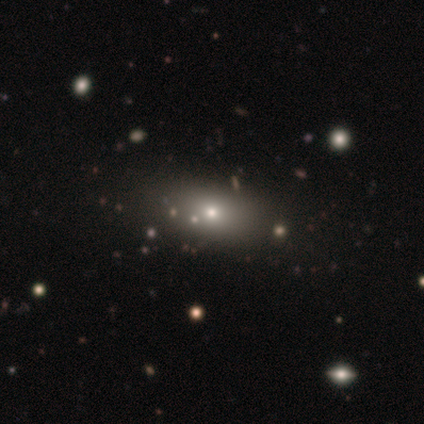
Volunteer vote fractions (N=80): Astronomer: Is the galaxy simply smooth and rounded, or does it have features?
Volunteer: smooth — 72%.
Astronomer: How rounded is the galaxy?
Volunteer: in between — 78%.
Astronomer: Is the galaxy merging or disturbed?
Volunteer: none — 34%.